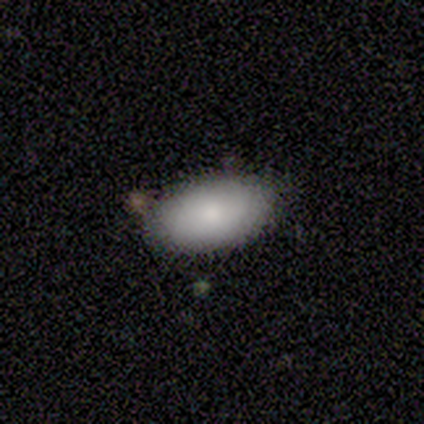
smooth_or_featured: smooth (p=0.50) [alt: featured or disk p=0.25]
how_rounded: in between (p=1.00)
merging: none (p=0.33) [tied with: minor disturbance p=0.33, major disturbance p=0.33]